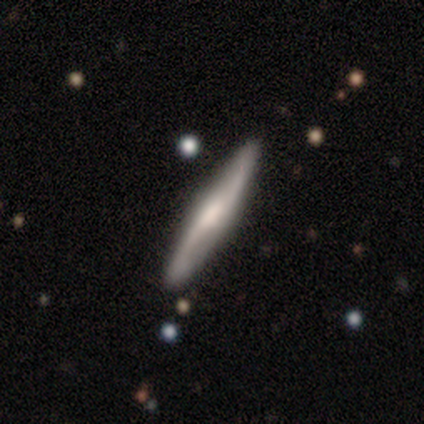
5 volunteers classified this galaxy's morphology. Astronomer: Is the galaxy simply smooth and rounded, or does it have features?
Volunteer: smooth — 60% (runner-up: featured or disk, 40%).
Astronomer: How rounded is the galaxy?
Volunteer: cigar-shaped — 100%.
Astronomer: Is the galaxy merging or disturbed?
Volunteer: none — 80%.